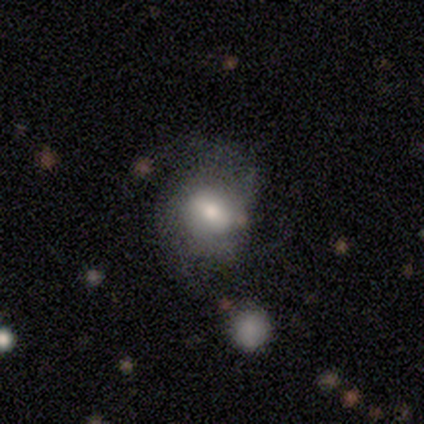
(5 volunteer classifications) Morphology: type=smooth (40%, tied with featured or disk); roundness=round (100%); merging=none (75%).